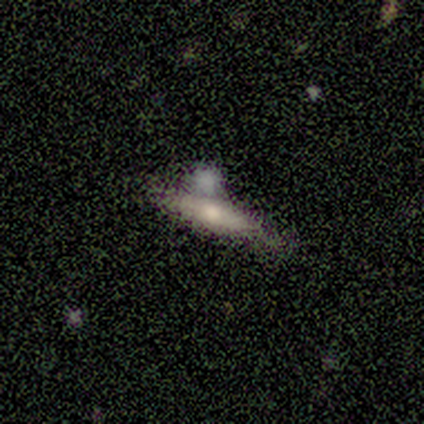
Smooth or featured? 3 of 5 (60%) said smooth. How rounded? 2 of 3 (67%) said in between. Merging? 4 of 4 (100%) said none.